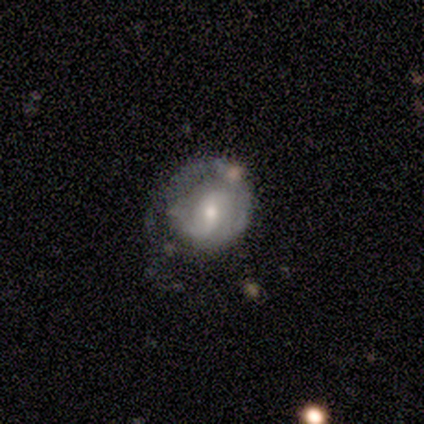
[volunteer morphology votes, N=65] Smooth or featured? 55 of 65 (85%) said featured or disk. Edge-on disk? 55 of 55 (100%) said no. Bar? 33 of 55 (60%) said weak. Spiral arms? 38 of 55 (69%) said yes. Spiral winding? 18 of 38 (47%) said tight. Spiral arm count? 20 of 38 (53%) said 2. Bulge size? 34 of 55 (62%) said moderate. Merging? 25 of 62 (40%) said none.